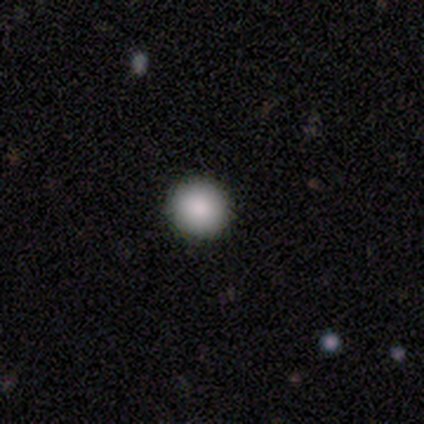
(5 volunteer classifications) This is clearly a smooth galaxy (100%). How rounded: clearly round (100%). Merging: likely none (60%).